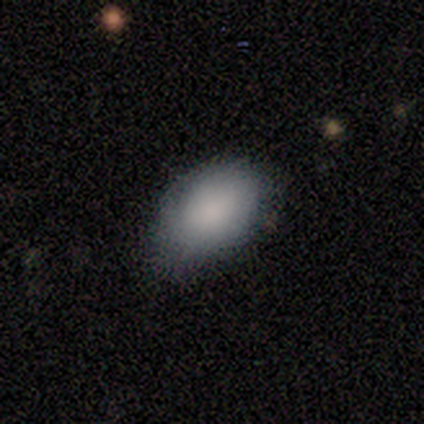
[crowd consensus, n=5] Q: Smooth or featured?
A: smooth (100%)
Q: How rounded?
A: in between (80%); runner-up: round (20%)
Q: Merging?
A: minor disturbance (100%)